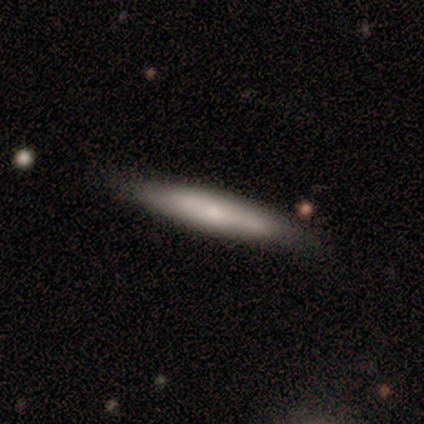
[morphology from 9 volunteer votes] Smooth or featured: smooth — 67% (featured or disk — 33%)
How rounded: cigar-shaped — 83% (in between — 17%)
Merging: none — 89% (merger — 11%)